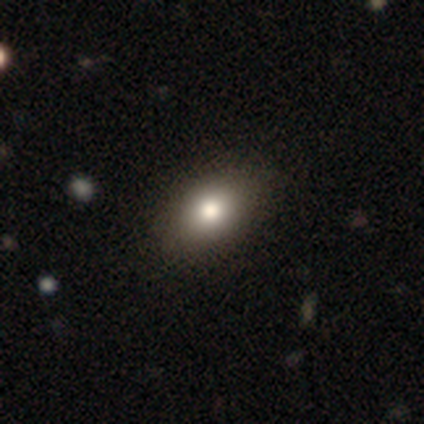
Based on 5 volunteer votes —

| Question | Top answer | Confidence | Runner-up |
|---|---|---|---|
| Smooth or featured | smooth | 60% | featured or disk (20%) |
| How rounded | in between | 67% | round (33%) |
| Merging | none | 100% | — |